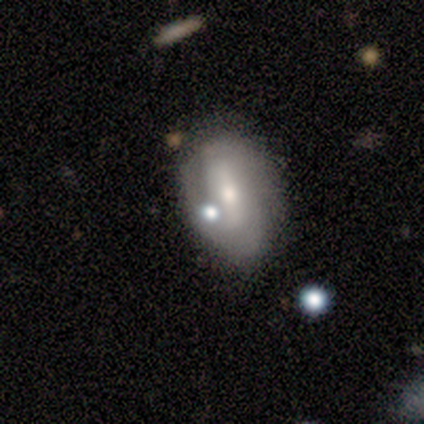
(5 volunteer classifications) A featured or disk galaxy (80%) with a weak bar (50%), 2 (100%) medium (50%) spiral arms (100%) and a moderate central bulge (50%).

Vote fractions:
- Smooth or featured? featured or disk: 80% / smooth: 20% / star or artifact: 0%
- Edge-on disk? no: 100% / yes: 0%
- Bar? weak: 50% / strong: 25% / no: 25%
- Spiral arms? yes: 100% / no: 0%
- Spiral winding? medium: 50% / tight: 25% / loose: 25%
- Spiral arm count? 2: 100% / 1: 0% / 3: 0% / 4: 0% / more than 4: 0% / can't tell: 0%
- Bulge size? moderate: 50% / large: 25% / small: 25% / dominant: 0% / none: 0%
- Merging? none: 80% / minor disturbance: 20% / major disturbance: 0% / merger: 0%